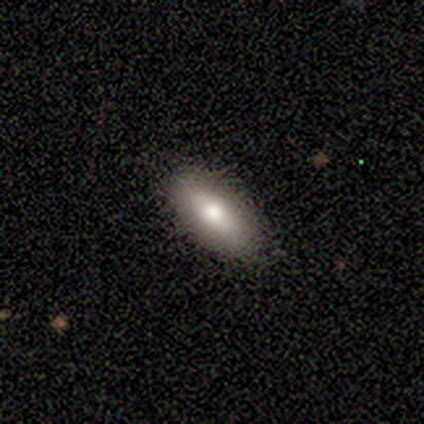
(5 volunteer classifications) This appears to be a smooth galaxy with no disk features (80%) that is cigar-shaped (75%). Merging: none (100%).